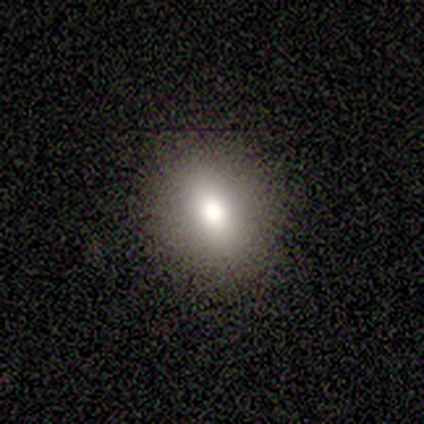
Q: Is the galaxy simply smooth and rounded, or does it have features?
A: smooth — 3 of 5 (60%).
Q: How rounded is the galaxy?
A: in between — 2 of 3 (67%).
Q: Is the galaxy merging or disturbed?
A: none — 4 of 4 (100%).